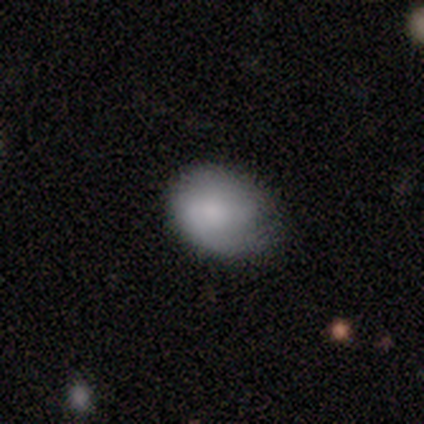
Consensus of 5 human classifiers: Smooth or featured: smooth — 100%
How rounded: in between — 60% (round — 40%)
Merging: none — 60% (minor disturbance — 40%)